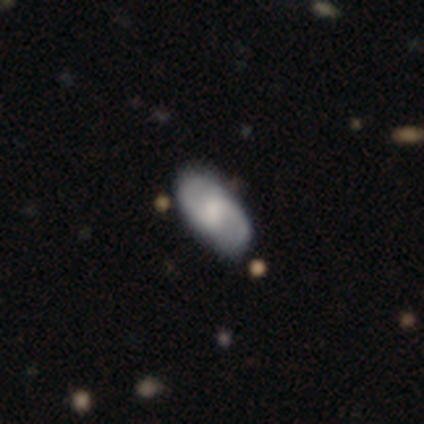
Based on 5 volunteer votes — This appears to be a smooth galaxy with no disk features (60%) that is in between round and cigar-shaped (67%). Merging: none (100%).